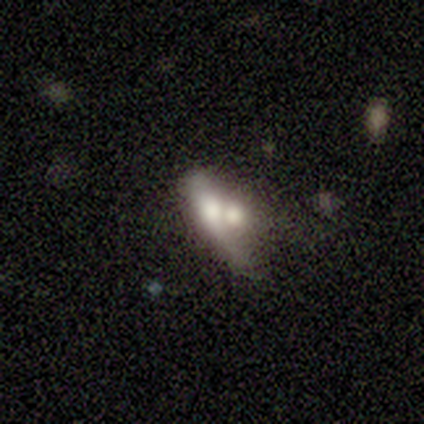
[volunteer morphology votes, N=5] A smooth galaxy with no disk features (80%) that is in between round and cigar-shaped (50%, tied with cigar-shaped).

Vote fractions:
- Smooth or featured? smooth: 80% / star or artifact: 20% / featured or disk: 0%
- How rounded? in between: 50% (tied) / cigar-shaped: 50% (tied) / round: 0%
- Merging? merger: 75% / none: 25% / minor disturbance: 0% / major disturbance: 0%